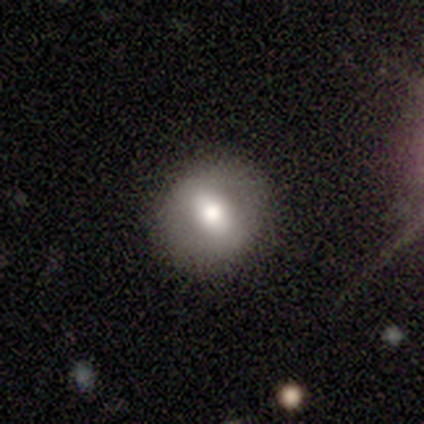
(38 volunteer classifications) Volunteers were most divided on "smooth or featured": smooth: 55%, featured or disk: 39%, star or artifact: 5%. More confident: merging — none (81%); how rounded — round (76%).